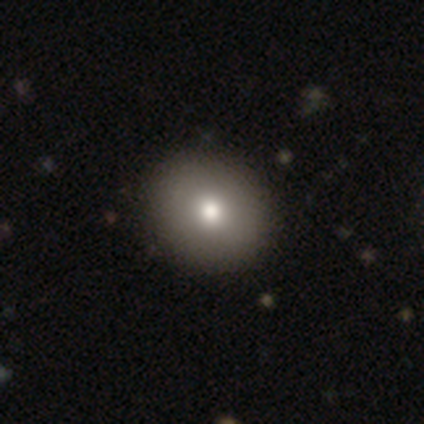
Smooth or featured? smooth (87%)
How rounded? round (85%)
Merging? none (74%)